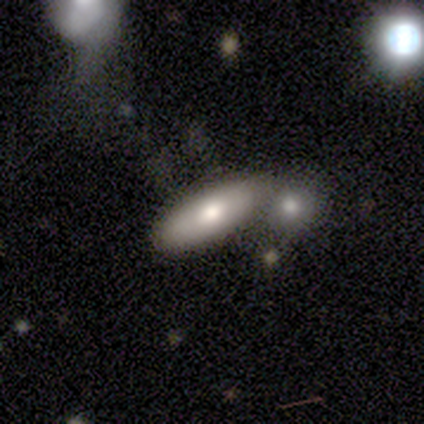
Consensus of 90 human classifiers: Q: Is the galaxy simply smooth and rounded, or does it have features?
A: smooth — 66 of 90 (73%).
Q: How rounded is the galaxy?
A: in between — 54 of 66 (82%).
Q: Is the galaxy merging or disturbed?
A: none — 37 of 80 (46%).